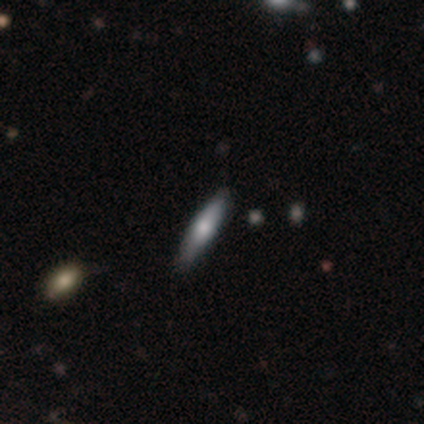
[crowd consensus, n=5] smooth-or-featured: smooth: 80% | featured or disk: 20% | star or artifact: 0%
  how-rounded: cigar-shaped: 75% | in between: 25% | round: 0%
  merging: none: 80% | minor disturbance: 20% | major disturbance: 0% | merger: 0%